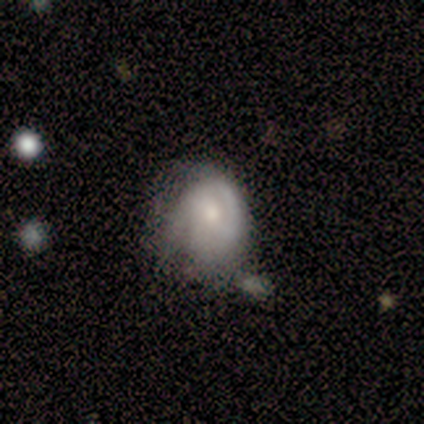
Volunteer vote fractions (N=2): smooth-or-featured: smooth: 50% (tied) | featured or disk: 50% (tied) | star or artifact: 0%
  how-rounded: round: 100% | in between: 0% | cigar-shaped: 0%
  merging: minor disturbance: 50% (tied) | merger: 50% (tied) | none: 0% | major disturbance: 0%